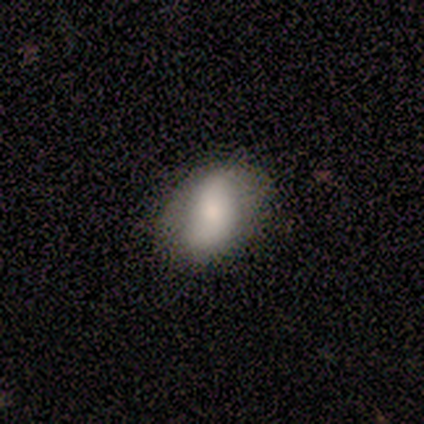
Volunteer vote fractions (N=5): A smooth galaxy with no disk features (100%) that is in between round and cigar-shaped (100%). Merging: none (80%).